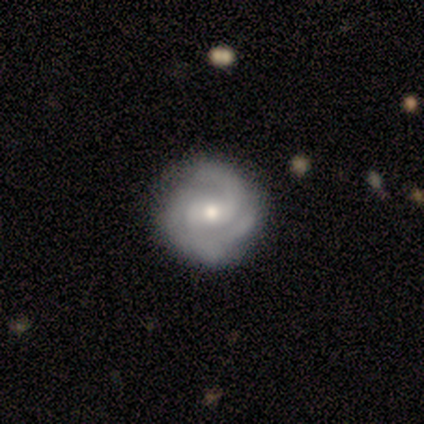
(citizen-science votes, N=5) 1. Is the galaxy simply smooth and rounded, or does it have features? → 60% featured or disk, 20% smooth, 20% star or artifact.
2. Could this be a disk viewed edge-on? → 100% no, 0% yes.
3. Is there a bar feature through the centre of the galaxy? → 67% no, 33% weak, 0% strong.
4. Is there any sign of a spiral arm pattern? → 100% yes, 0% no.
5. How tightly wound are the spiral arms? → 67% medium, 33% tight, 0% loose.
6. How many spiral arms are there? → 67% 2, 33% 3, 0% 1, 0% 4, 0% more than 4, 0% can't tell.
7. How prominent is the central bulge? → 67% moderate, 33% small, 0% dominant, 0% large, 0% none.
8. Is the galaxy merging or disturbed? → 50% none (tied), 50% minor disturbance (tied), 0% major disturbance, 0% merger.